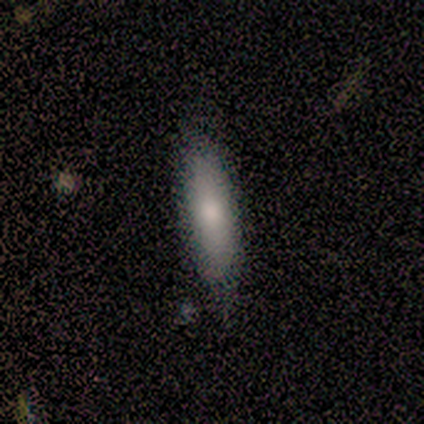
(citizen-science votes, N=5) Smooth or featured: smooth — 80% (featured or disk — 20%)
How rounded: cigar-shaped — 75% (in between — 25%)
Merging: none — 80% (minor disturbance — 20%)